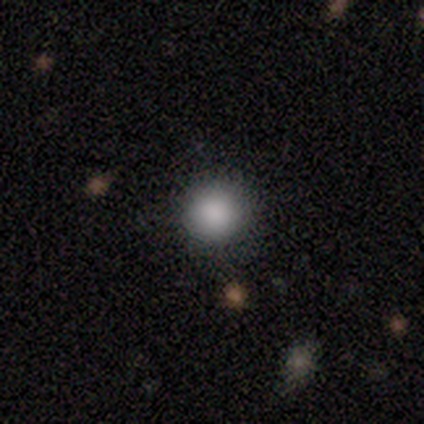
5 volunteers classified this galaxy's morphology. type=smooth (80%); roundness=round (100%); merging=none (100%).